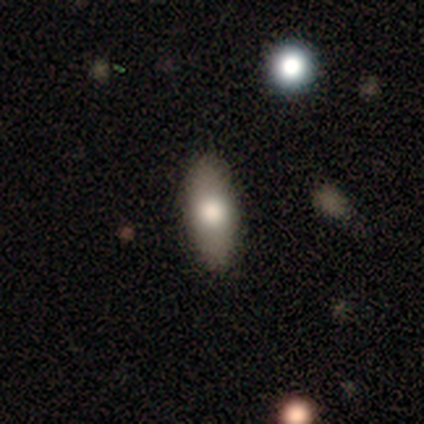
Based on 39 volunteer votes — This is clearly a smooth galaxy (85%). How rounded: likely in between (79%). Merging: clearly none (84%).